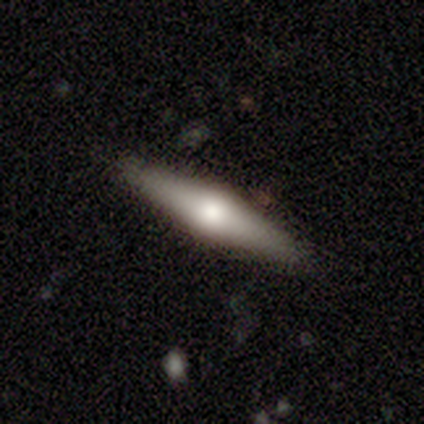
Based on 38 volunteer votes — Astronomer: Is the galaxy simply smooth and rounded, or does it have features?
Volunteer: featured or disk — 58% (runner-up: smooth, 37%).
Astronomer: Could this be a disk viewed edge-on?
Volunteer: yes — 95%.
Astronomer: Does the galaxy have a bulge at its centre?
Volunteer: rounded — 95%.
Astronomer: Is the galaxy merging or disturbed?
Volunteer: none — 92%.